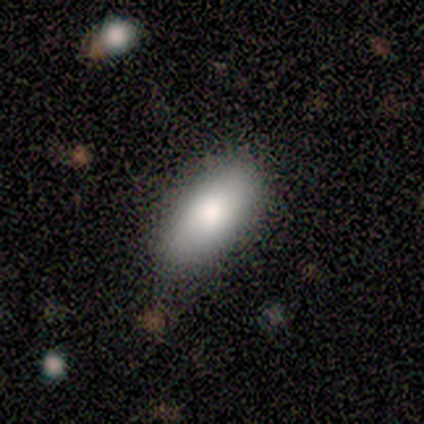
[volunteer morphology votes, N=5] Volunteers were most divided on "merging": none: 80%, minor disturbance: 20%, major disturbance: 0%, merger: 0%. More confident: smooth or featured — smooth (100%); how rounded — in between (100%).